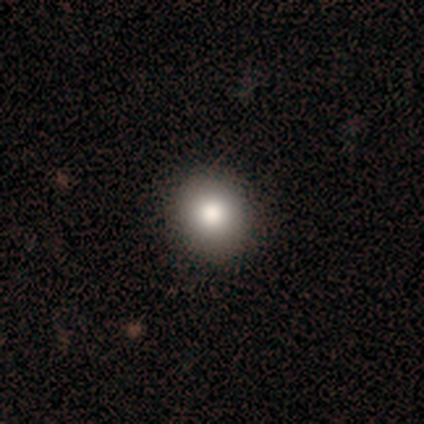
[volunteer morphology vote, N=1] Smooth or featured? star or artifact (100%)